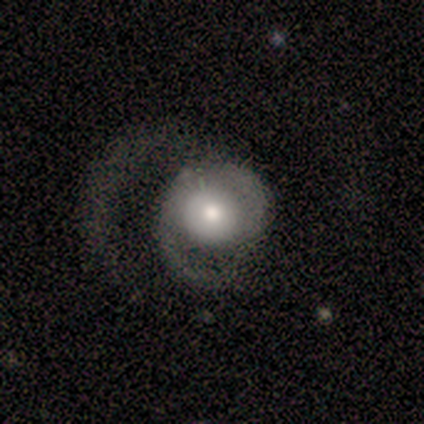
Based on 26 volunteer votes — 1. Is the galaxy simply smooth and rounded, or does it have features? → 77% featured or disk, 15% smooth, 8% star or artifact.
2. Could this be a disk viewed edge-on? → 95% no, 5% yes.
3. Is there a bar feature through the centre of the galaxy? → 95% no, 5% weak, 0% strong.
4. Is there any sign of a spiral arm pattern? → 89% yes, 11% no.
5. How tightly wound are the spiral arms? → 59% medium, 24% loose, 18% tight.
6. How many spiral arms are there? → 71% 2, 29% 1, 0% 3, 0% 4, 0% more than 4, 0% can't tell.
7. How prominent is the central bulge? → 42% moderate, 37% large, 11% dominant, 11% small, 0% none.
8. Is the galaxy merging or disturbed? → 67% major disturbance, 29% none, 4% minor disturbance, 0% merger.